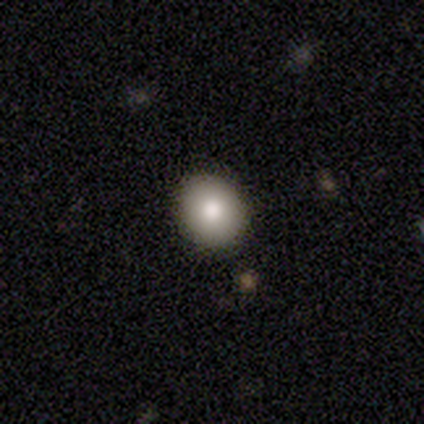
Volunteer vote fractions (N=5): Overall: smooth (100%). How rounded: round (60%; in between 40%). Merging: none (80%).